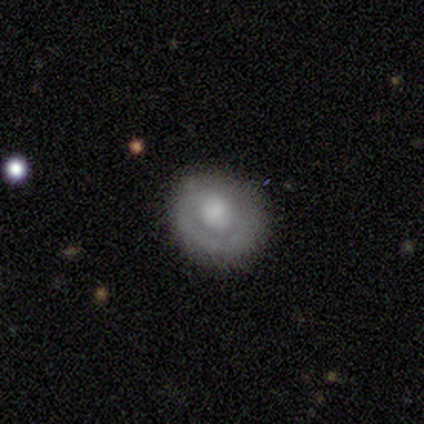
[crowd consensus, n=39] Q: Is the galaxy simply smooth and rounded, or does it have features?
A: smooth — 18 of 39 (46%, tied with featured or disk).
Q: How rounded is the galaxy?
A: round — 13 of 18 (72%).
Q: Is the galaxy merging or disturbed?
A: none — 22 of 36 (61%).